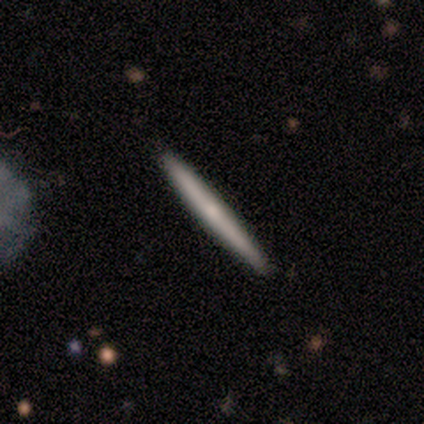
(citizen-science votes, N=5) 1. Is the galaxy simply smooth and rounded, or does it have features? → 60% smooth, 40% featured or disk, 0% star or artifact.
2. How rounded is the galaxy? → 100% cigar-shaped, 0% round, 0% in between.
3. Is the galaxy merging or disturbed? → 100% none, 0% minor disturbance, 0% major disturbance, 0% merger.